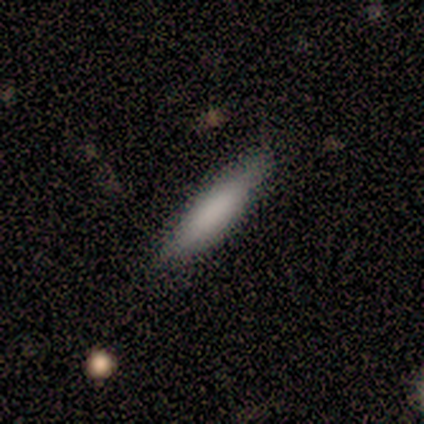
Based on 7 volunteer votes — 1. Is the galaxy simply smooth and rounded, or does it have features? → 71% smooth, 29% featured or disk, 0% star or artifact.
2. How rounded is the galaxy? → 60% cigar-shaped, 40% in between, 0% round.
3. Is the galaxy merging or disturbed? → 71% none, 29% minor disturbance, 0% major disturbance, 0% merger.